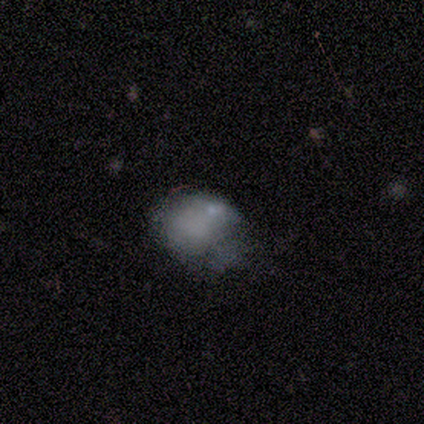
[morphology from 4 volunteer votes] A smooth galaxy with no disk features (75%) that is round (67%).

Vote fractions:
- Smooth or featured? smooth: 75% / featured or disk: 25% / star or artifact: 0%
- How rounded? round: 67% / in between: 33% / cigar-shaped: 0%
- Merging? none: 50% / minor disturbance: 25% / merger: 25% / major disturbance: 0%